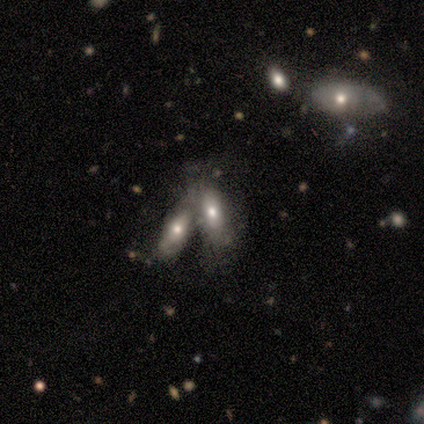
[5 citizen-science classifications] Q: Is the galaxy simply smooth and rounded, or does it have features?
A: featured or disk — 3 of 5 (60%).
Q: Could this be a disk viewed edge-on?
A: no — 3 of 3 (100%).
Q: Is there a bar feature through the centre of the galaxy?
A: strong — 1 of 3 (33%, tied with weak and no).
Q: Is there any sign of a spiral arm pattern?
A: no — 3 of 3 (100%).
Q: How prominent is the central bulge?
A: moderate — 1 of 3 (33%, tied with small and none).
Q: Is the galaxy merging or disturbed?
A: merger — 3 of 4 (75%).